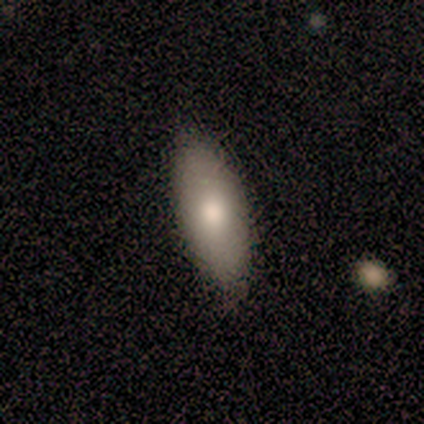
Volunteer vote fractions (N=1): Smooth or featured?
  - smooth: 100% *
  - featured or disk: 0%
  - star or artifact: 0%
How rounded?
  - in between: 100% *
  - round: 0%
  - cigar-shaped: 0%
Merging?
  - none: 100% *
  - minor disturbance: 0%
  - major disturbance: 0%
  - merger: 0%